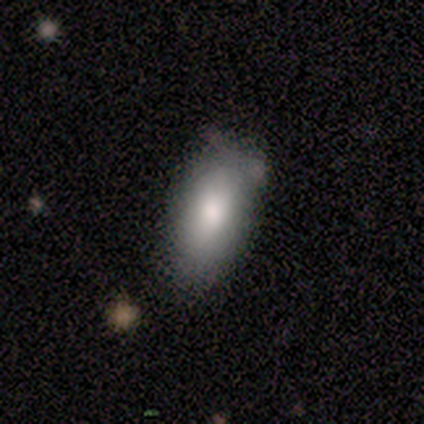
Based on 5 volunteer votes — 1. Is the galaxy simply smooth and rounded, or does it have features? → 100% smooth, 0% featured or disk, 0% star or artifact.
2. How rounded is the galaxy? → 100% in between, 0% round, 0% cigar-shaped.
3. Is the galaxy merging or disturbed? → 80% minor disturbance, 20% none, 0% major disturbance, 0% merger.